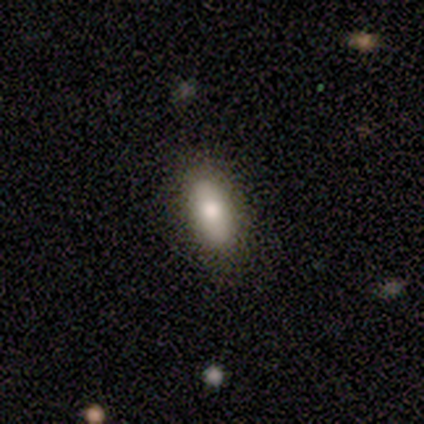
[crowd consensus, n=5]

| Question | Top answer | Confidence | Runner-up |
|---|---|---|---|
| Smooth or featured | smooth | 80% | featured or disk (20%) |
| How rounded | in between | 75% | cigar-shaped (25%) |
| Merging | none | 100% | — |